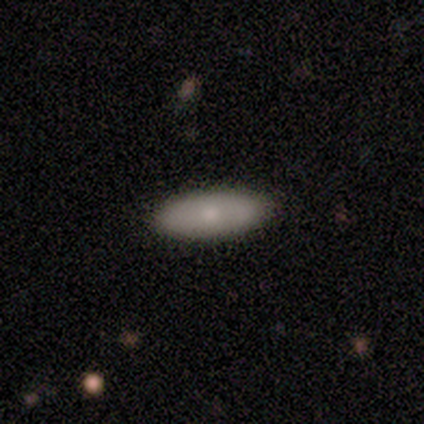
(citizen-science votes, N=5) A smooth galaxy with no disk features (60%) that is in between round and cigar-shaped (100%). Merging: none (80%).